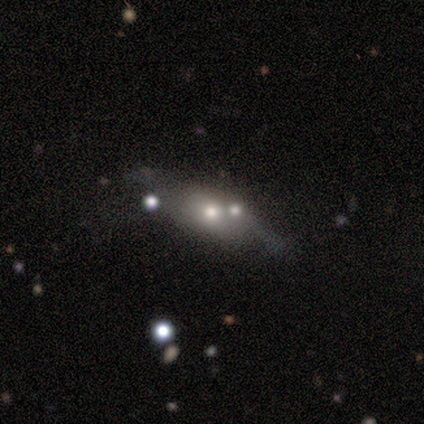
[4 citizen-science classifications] Consensus on every question: smooth or featured — smooth (100%); how rounded — in between (100%); merging — merger (100%).